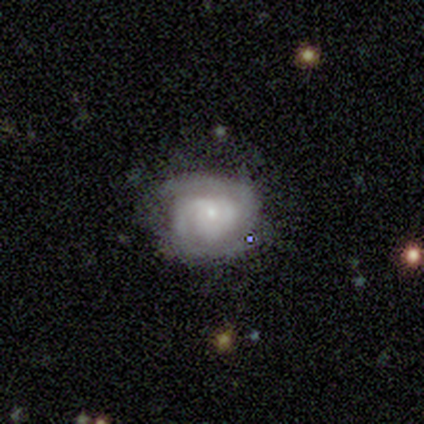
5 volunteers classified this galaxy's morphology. Smooth or featured?
  - featured or disk: 80% *
  - smooth: 20%
  - star or artifact: 0%
Edge-on disk?
  - no: 100% *
  - yes: 0%
Bar?
  - no: 100% *
  - strong: 0%
  - weak: 0%
Spiral arms?
  - yes: 100% *
  - no: 0%
Spiral winding?
  - tight: 100% *
  - medium: 0%
  - loose: 0%
Spiral arm count?
  - 2: 75% *
  - can't tell: 25%
  - 1: 0%
  - 3: 0%
  - 4: 0%
  - more than 4: 0%
Bulge size?
  - small: 75% *
  - none: 25%
  - dominant: 0%
  - large: 0%
  - moderate: 0%
Merging?
  - none: 80% *
  - major disturbance: 20%
  - minor disturbance: 0%
  - merger: 0%